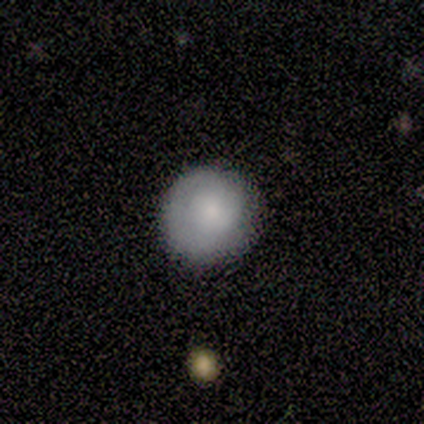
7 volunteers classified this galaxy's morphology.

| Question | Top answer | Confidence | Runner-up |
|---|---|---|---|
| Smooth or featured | smooth | 100% | — |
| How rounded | round | 100% | — |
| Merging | none | 86% | minor disturbance (14%) |